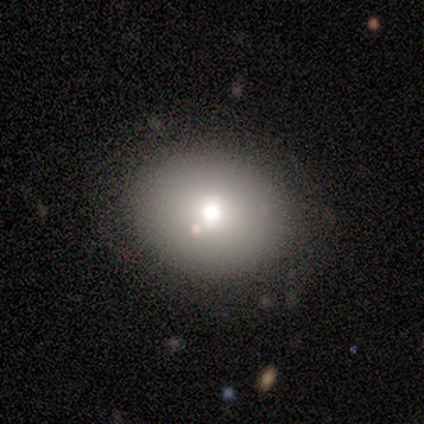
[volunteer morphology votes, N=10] smooth-or-featured: smooth: 60% | star or artifact: 30% | featured or disk: 10%
  how-rounded: round: 67% | in between: 33% | cigar-shaped: 0%
  merging: none: 86% | merger: 14% | minor disturbance: 0% | major disturbance: 0%